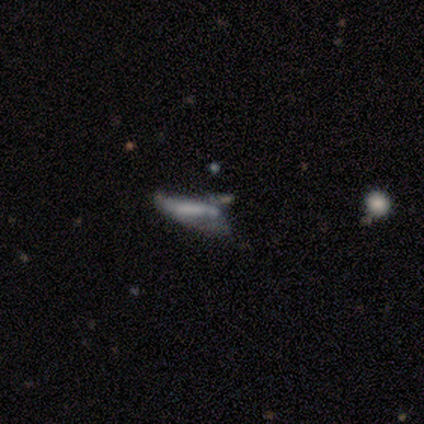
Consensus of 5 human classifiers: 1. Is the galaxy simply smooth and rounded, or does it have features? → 60% smooth, 40% featured or disk, 0% star or artifact.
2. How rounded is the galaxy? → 100% cigar-shaped, 0% round, 0% in between.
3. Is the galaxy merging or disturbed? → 40% none (tied), 40% minor disturbance (tied), 20% major disturbance, 0% merger.